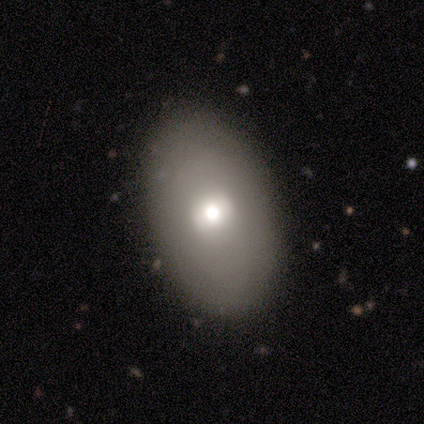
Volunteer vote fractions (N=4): This is possibly a smooth galaxy (50%, tied with featured or disk). How rounded: clearly in between (100%). Merging: likely none (75%).